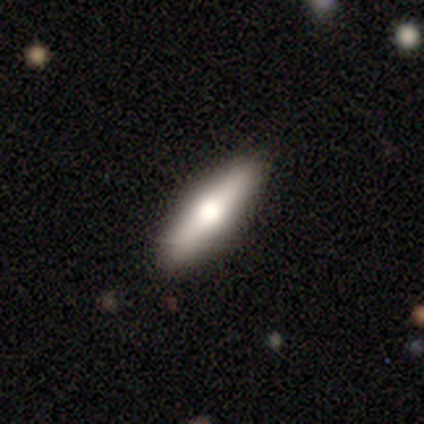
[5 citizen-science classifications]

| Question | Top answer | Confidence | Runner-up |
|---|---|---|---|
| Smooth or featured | featured or disk | 60% | smooth (40%) |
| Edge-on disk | yes | 100% | — |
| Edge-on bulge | rounded | 67% | boxy (33%) |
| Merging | none | 100% | — |